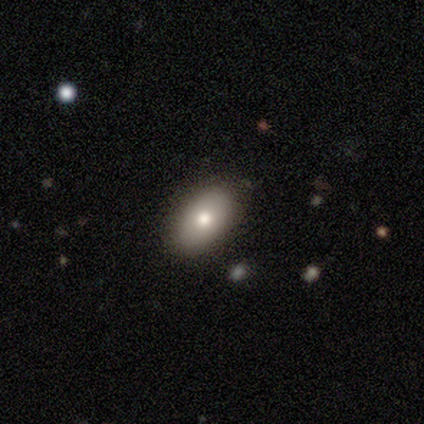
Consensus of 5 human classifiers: Smooth or featured? 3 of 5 (60%) said smooth. How rounded? 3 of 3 (100%) said in between. Merging? 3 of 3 (100%) said none.